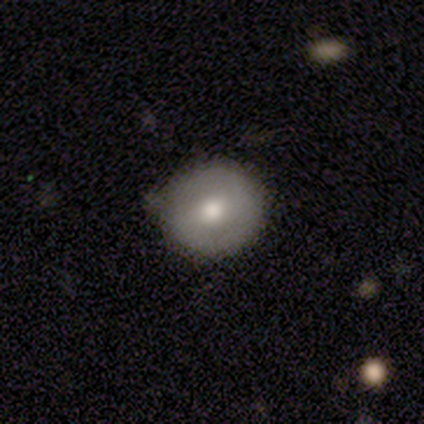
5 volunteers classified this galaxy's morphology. A smooth galaxy with no disk features (80%) that is round (100%).

Vote fractions:
- Smooth or featured? smooth: 80% / featured or disk: 20% / star or artifact: 0%
- How rounded? round: 100% / in between: 0% / cigar-shaped: 0%
- Merging? none: 80% / major disturbance: 20% / minor disturbance: 0% / merger: 0%